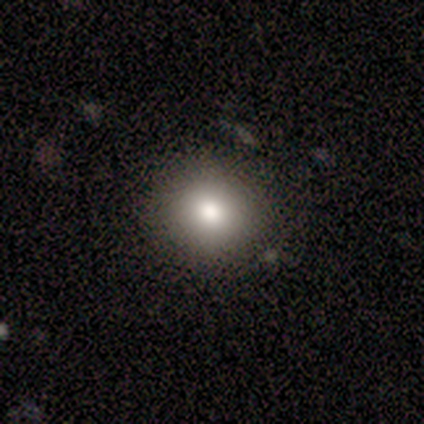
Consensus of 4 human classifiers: smooth 75%, featured or disk 25%, star or artifact 0%. Down the decision tree: how rounded — round (100%); merging — none (100%).